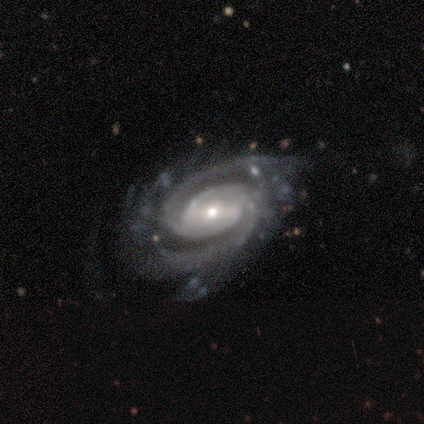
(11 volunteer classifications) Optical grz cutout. It shows a featured or disk galaxy (100%) with a weak bar (60%), 2 (50%) tight (60%) spiral arms (100%) and a small central bulge (70%). Merging: none (73%).